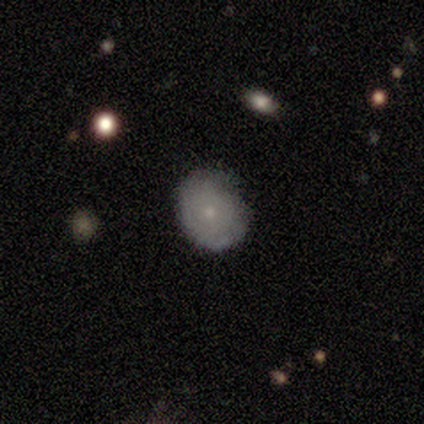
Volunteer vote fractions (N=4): A smooth galaxy with no disk features (75%) that is round (67%).

Vote fractions:
- Smooth or featured? smooth: 75% / featured or disk: 25% / star or artifact: 0%
- How rounded? round: 67% / in between: 33% / cigar-shaped: 0%
- Merging? none: 75% / minor disturbance: 25% / major disturbance: 0% / merger: 0%